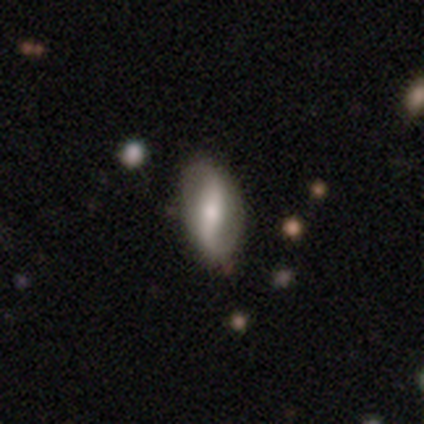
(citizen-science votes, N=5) smooth_or_featured: smooth (p=0.40) [tied with: featured or disk p=0.40]
how_rounded: in between (p=1.00)
merging: none (p=0.50) [alt: minor disturbance p=0.25]